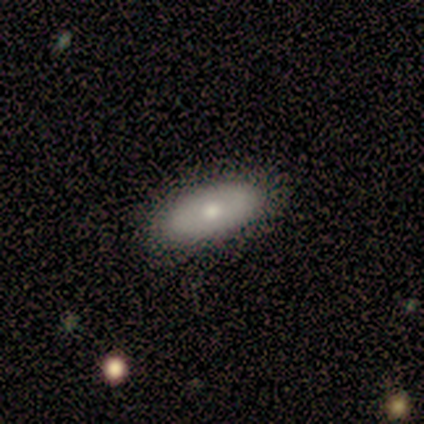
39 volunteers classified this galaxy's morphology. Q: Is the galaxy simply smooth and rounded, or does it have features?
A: smooth — 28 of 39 (72%).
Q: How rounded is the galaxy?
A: in between — 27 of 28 (96%).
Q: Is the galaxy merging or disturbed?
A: none — 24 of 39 (62%).